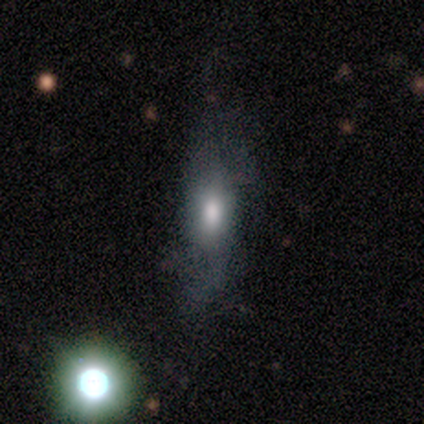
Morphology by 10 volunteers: Overall: smooth (90%). How rounded: in between (89%). Merging: none (40%; minor disturbance 30%).